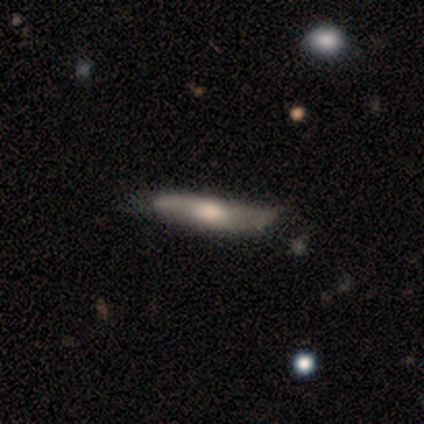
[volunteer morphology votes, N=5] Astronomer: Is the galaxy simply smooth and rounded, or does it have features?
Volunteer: smooth — 80%.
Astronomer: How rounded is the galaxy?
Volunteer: cigar-shaped — 100%.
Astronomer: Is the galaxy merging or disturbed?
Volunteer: none — 60% (runner-up: minor disturbance, 40%).